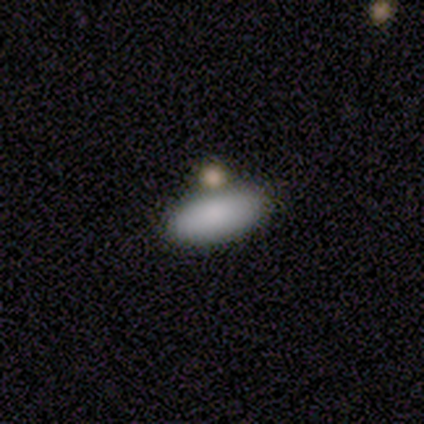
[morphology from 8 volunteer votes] smooth-or-featured: smooth: 88% | featured or disk: 12% | star or artifact: 0%
  how-rounded: in between: 100% | round: 0% | cigar-shaped: 0%
  merging: none: 75% | minor disturbance: 12% | merger: 12% | major disturbance: 0%